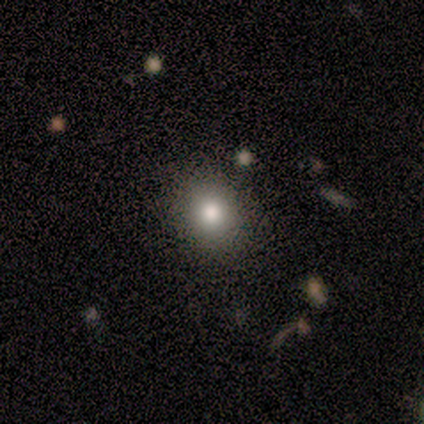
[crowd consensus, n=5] smooth_or_featured: smooth (p=1.00)
how_rounded: round (p=1.00)
merging: none (p=1.00)